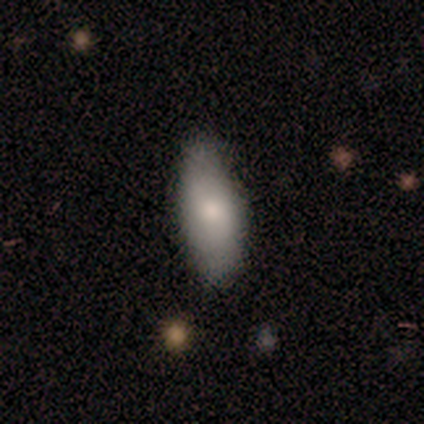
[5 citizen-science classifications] Smooth or featured? 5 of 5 (100%) said smooth. How rounded? 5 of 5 (100%) said in between. Merging? 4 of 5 (80%) said none.